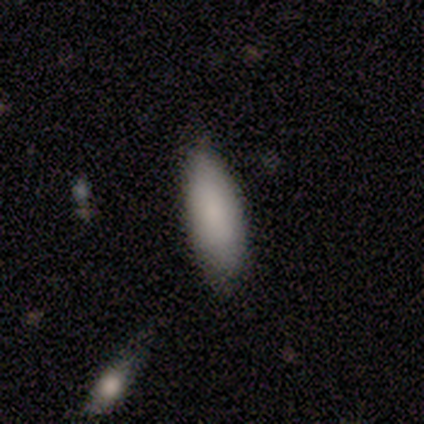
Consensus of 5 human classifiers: Smooth or featured: smooth — 80% (star or artifact — 20%)
How rounded: in between — 100%
Merging: none — 75% (minor disturbance — 25%)